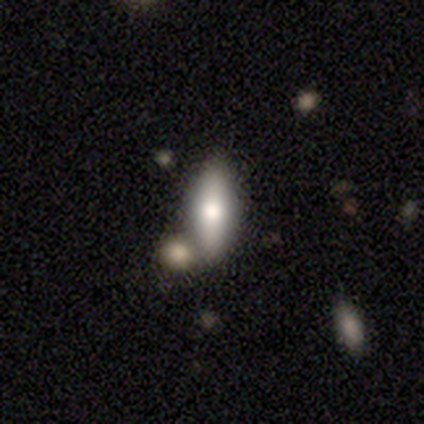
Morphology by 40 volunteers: Smooth or featured: smooth — 75% (featured or disk — 22%)
How rounded: in between — 80% (cigar-shaped — 20%)
Merging: none — 74% (merger — 10%)